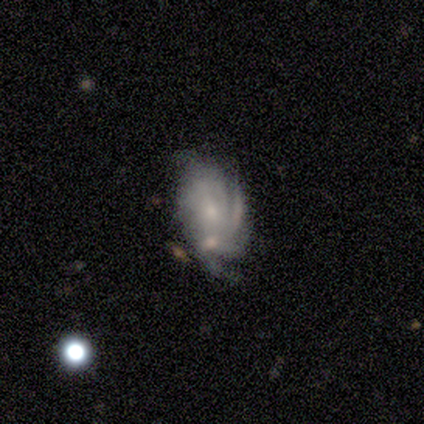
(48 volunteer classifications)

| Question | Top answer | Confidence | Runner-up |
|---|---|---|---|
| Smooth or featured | featured or disk | 81% | smooth (10%) |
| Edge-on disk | no | 97% | yes (3%) |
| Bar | no | 76% | weak (18%) |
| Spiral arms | yes | 89% | no (11%) |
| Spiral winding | tight | 68% | medium (24%) |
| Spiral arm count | can't tell | 56% | 2 (12%) |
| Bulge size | small | 58% | moderate (32%) |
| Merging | none | 34% | minor disturbance (32%) |